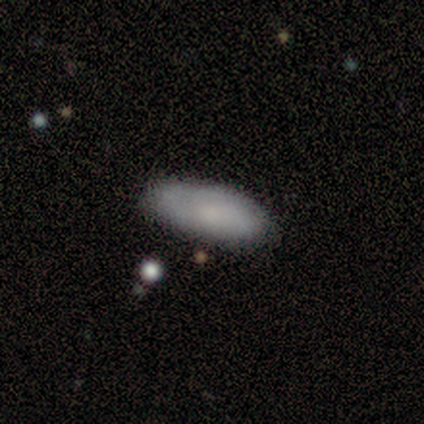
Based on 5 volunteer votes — Q: Smooth or featured?
A: smooth (100%)
Q: How rounded?
A: in between (80%); runner-up: cigar-shaped (20%)
Q: Merging?
A: none (80%); runner-up: minor disturbance (20%)